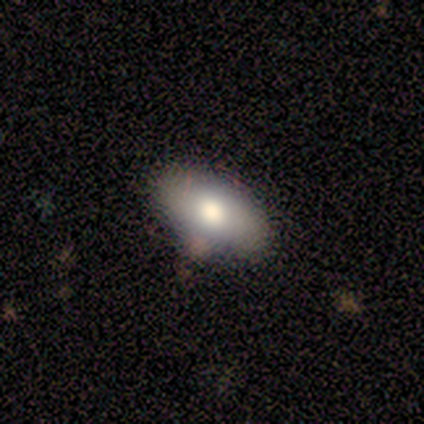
This is likely a smooth galaxy (60%). How rounded: clearly in between (100%). Merging: clearly none (100%).